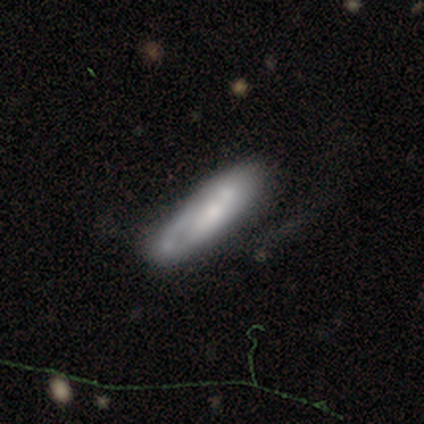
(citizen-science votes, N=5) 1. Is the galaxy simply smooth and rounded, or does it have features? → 60% smooth, 40% featured or disk, 0% star or artifact.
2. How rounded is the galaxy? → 67% cigar-shaped, 33% in between, 0% round.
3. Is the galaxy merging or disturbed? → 60% none, 20% minor disturbance, 20% major disturbance, 0% merger.